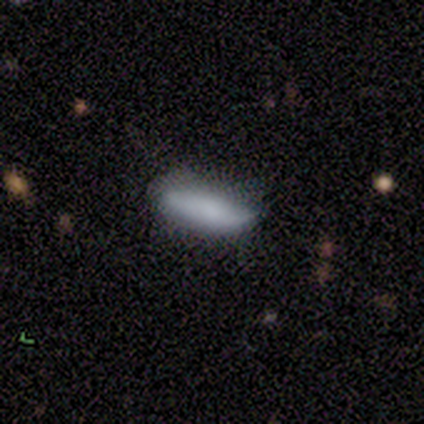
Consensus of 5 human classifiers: Overall: smooth (60%; featured or disk 40%). How rounded: in between (67%; cigar-shaped 33%). Merging: none (80%).